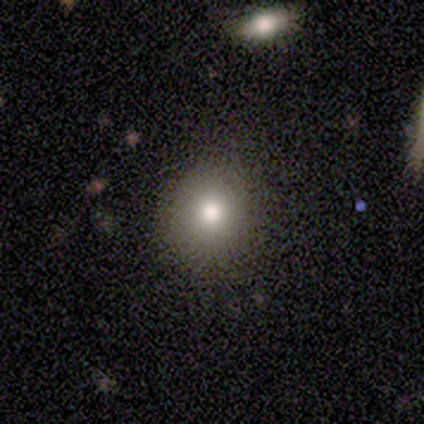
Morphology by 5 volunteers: Q: Smooth or featured?
A: smooth (60%); runner-up: featured or disk (20%)
Q: How rounded?
A: round (100%)
Q: Merging?
A: none (75%); runner-up: merger (25%)